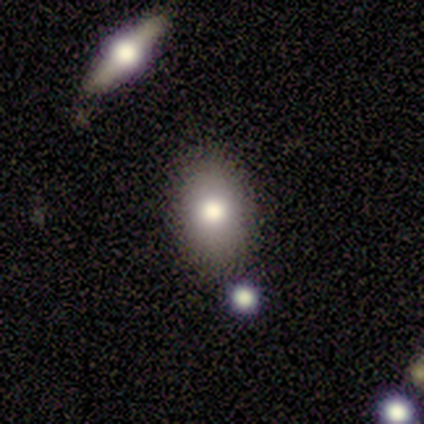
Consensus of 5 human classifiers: Smooth or featured? smooth (60%)
How rounded? in between (100%)
Merging? none (50%, tied with minor disturbance)